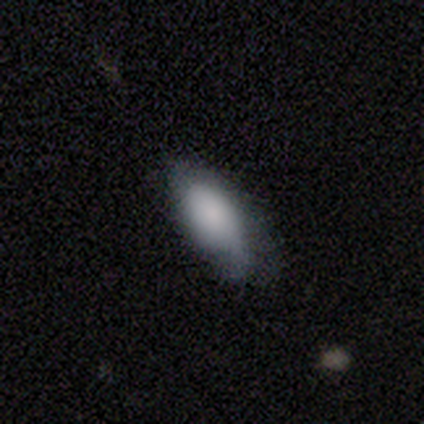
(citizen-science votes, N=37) Morphology: type=smooth (76%); roundness=in between (89%); merging=minor disturbance (50%).